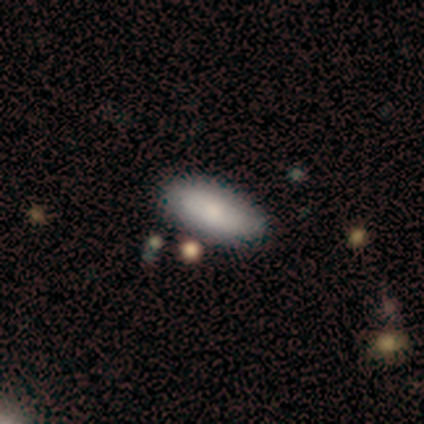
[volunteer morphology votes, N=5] Smooth or featured? 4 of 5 (80%) said smooth. How rounded? 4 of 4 (100%) said in between. Merging? 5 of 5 (100%) said none.